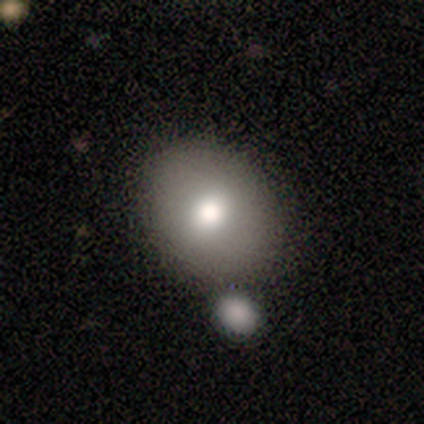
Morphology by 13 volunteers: This appears to be a smooth galaxy with no disk features (69%) that is round (56%). Merging: none (69%).